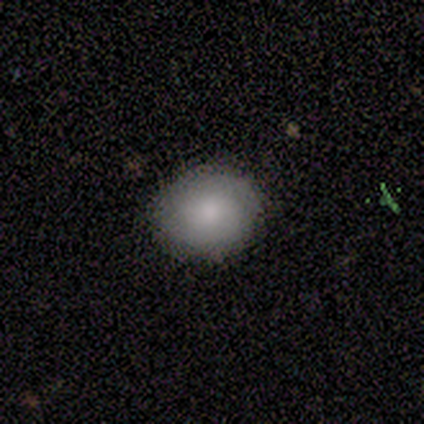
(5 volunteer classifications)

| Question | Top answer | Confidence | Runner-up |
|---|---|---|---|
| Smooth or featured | smooth | 80% | star or artifact (20%) |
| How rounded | in between | 75% | round (25%) |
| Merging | none | 100% | — |